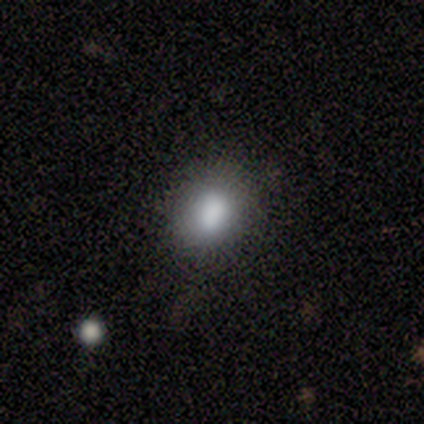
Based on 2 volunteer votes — smooth_or_featured: smooth (p=1.00)
how_rounded: in between (p=1.00)
merging: minor disturbance (p=0.50) [tied with: major disturbance p=0.50]